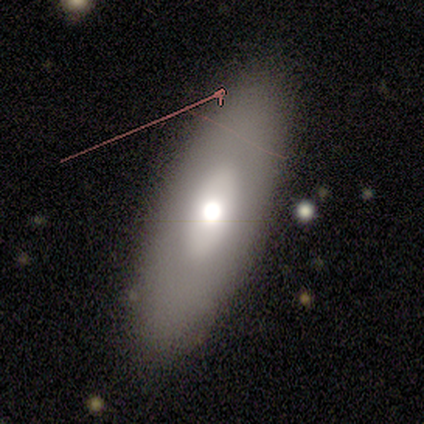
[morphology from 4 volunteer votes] Smooth or featured? 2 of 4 (50%) said featured or disk. Edge-on disk? 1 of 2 (50%, tied with no) said yes. Edge-on bulge? 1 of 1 (100%) said rounded. Merging? 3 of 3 (100%) said none.